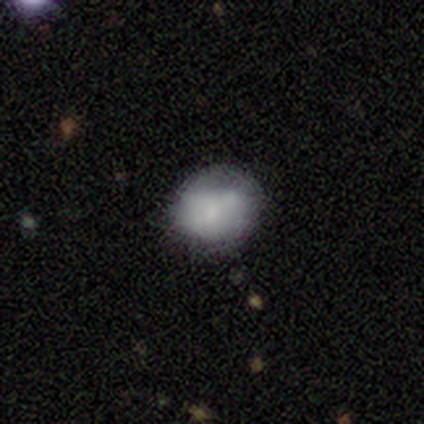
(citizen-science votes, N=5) Smooth or featured? 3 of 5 (60%) said smooth. How rounded? 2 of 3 (67%) said in between. Merging? 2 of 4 (50%) said merger.